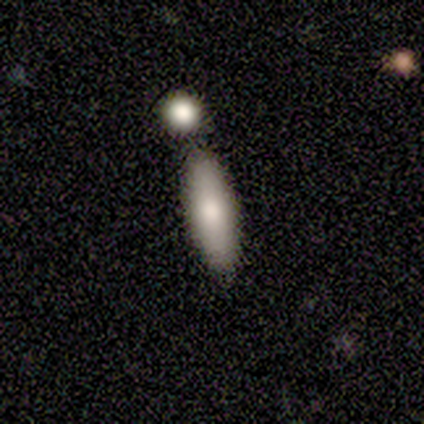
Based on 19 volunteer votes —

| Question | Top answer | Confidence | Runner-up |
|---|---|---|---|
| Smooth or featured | smooth | 79% | featured or disk (16%) |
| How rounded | in between | 53% | cigar-shaped (47%) |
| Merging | none | 72% | merger (22%) |